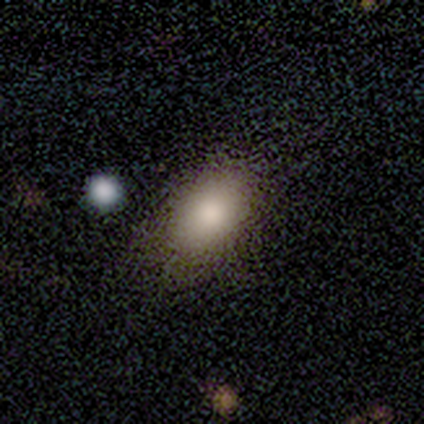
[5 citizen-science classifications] This appears to be a smooth galaxy with no disk features (100%) that is in between round and cigar-shaped (100%). Merging: none (100%).